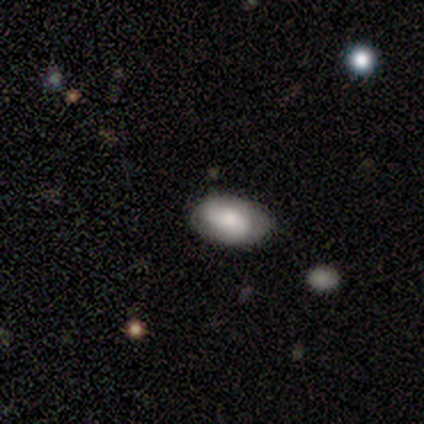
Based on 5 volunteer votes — A smooth galaxy with no disk features (60%) that is in between round and cigar-shaped (100%).

Vote fractions:
- Smooth or featured? smooth: 60% / featured or disk: 40% / star or artifact: 0%
- How rounded? in between: 100% / round: 0% / cigar-shaped: 0%
- Merging? none: 80% / minor disturbance: 20% / major disturbance: 0% / merger: 0%